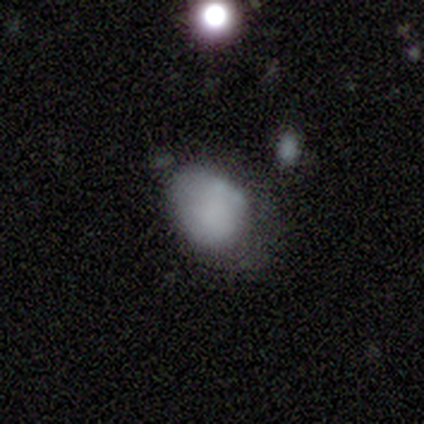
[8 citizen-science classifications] This appears to be a smooth galaxy with no disk features (88%) that is in between round and cigar-shaped (100%). Merging: minor disturbance (62%).